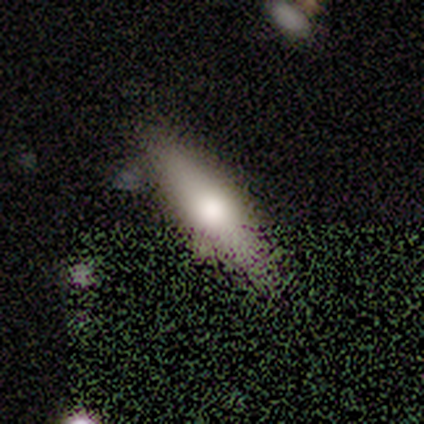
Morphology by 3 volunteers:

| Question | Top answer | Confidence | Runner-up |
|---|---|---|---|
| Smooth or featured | smooth | 100% | — |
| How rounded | cigar-shaped | 67% | in between (33%) |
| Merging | none | 100% | — |